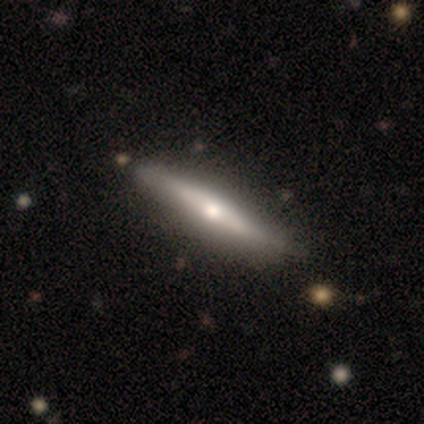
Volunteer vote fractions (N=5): smooth_or_featured: featured or disk (p=0.80) [alt: smooth p=0.20]
disk_edge_on: yes (p=1.00)
edge_on_bulge: rounded (p=1.00)
merging: none (p=1.00)